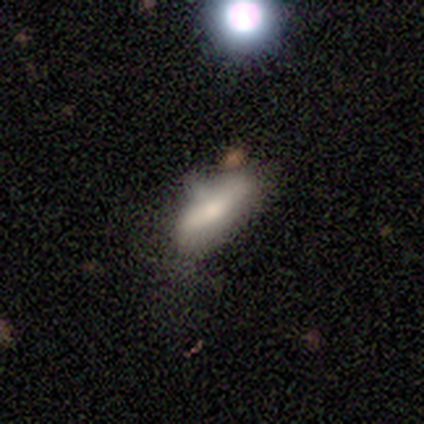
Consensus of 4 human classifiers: Smooth or featured: smooth — 75% (featured or disk — 25%)
How rounded: in between — 67% (cigar-shaped — 33%)
Merging: none — 50% (minor disturbance — 25%)